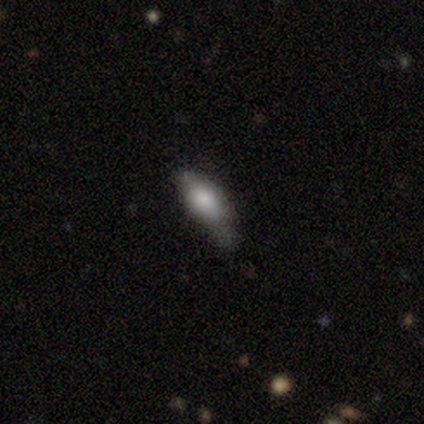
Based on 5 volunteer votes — smooth 80%, featured or disk 20%, star or artifact 0%. Down the decision tree: how rounded — in between (50%, tied with cigar-shaped); merging — minor disturbance (60%).